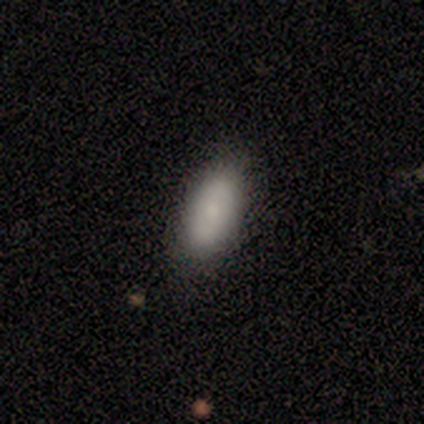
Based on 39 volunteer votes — smooth_or_featured: smooth (p=0.79) [alt: featured or disk p=0.15]
how_rounded: in between (p=0.94) [alt: round p=0.03]
merging: none (p=0.76) [alt: minor disturbance p=0.22]